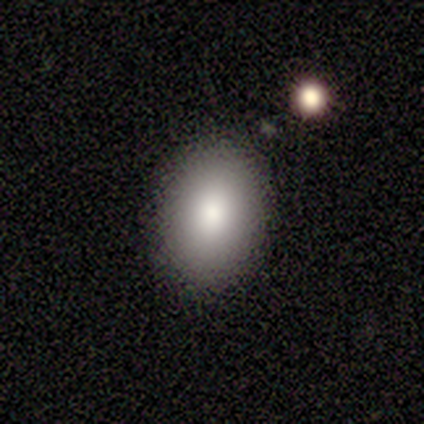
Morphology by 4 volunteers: Smooth or featured: smooth — 50% (tied with featured or disk — 50%)
How rounded: in between — 100%
Merging: none — 100%